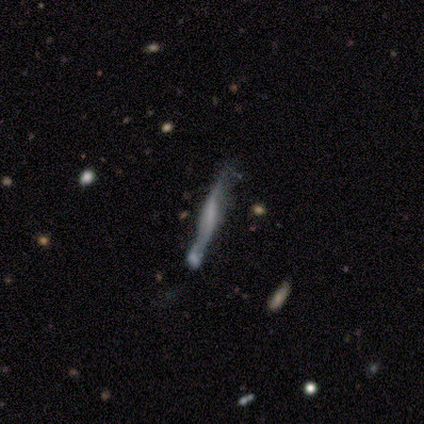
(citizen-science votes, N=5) smooth-or-featured: star or artifact: 60% | smooth: 20% | featured or disk: 20%